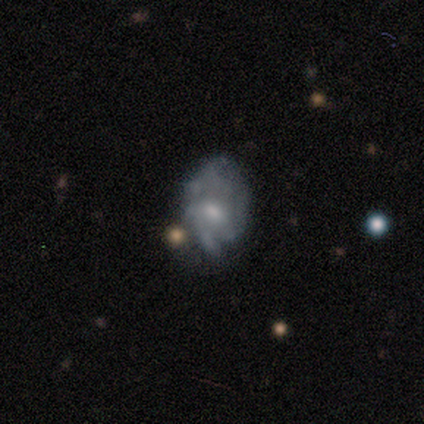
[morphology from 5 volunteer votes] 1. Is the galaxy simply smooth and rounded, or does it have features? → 100% featured or disk, 0% smooth, 0% star or artifact.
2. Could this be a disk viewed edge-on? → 100% no, 0% yes.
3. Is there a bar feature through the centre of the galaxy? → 80% no, 20% weak, 0% strong.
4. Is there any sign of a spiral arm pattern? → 80% yes, 20% no.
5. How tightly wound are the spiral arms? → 75% tight, 25% loose, 0% medium.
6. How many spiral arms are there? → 75% can't tell, 25% 4, 0% 1, 0% 2, 0% 3, 0% more than 4.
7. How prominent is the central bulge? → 40% moderate (tied), 40% small (tied), 20% large, 0% dominant, 0% none.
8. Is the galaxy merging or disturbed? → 60% none, 20% minor disturbance, 20% major disturbance, 0% merger.